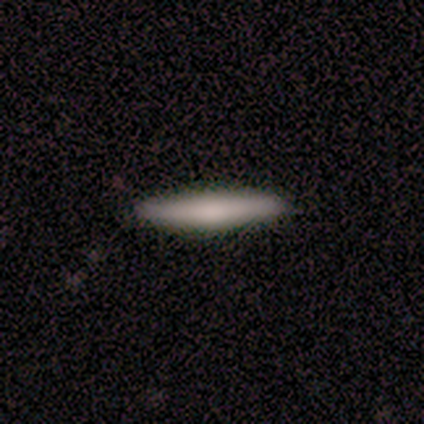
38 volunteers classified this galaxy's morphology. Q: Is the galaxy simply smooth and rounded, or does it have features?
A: smooth — 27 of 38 (71%).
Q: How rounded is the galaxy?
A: cigar-shaped — 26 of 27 (96%).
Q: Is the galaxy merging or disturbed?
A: none — 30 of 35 (86%).